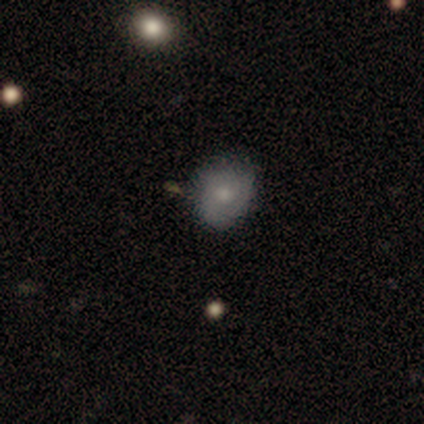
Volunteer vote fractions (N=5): Smooth or featured? smooth (60%)
How rounded? round (100%)
Merging? none (67%)